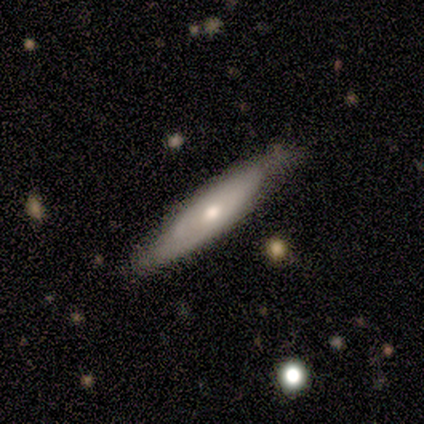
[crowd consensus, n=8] smooth_or_featured: featured or disk (p=0.62) [alt: smooth p=0.38]
disk_edge_on: yes (p=0.60) [alt: no p=0.40]
edge_on_bulge: none (p=0.67) [alt: rounded p=0.33]
merging: none (p=0.88) [alt: minor disturbance p=0.12]